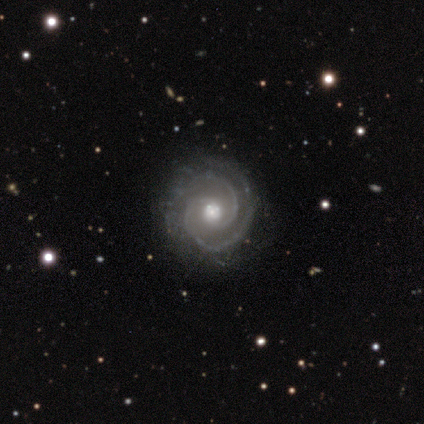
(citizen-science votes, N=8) Q: Smooth or featured?
A: featured or disk (100%)
Q: Edge-on disk?
A: no (100%)
Q: Bar?
A: no (62%); runner-up: weak (38%)
Q: Spiral arms?
A: yes (100%)
Q: Spiral winding?
A: tight (62%); runner-up: medium (38%)
Q: Spiral arm count?
A: 2 (100%)
Q: Bulge size?
A: moderate (75%); runner-up: small (25%)
Q: Merging?
A: none (88%); runner-up: minor disturbance (12%)